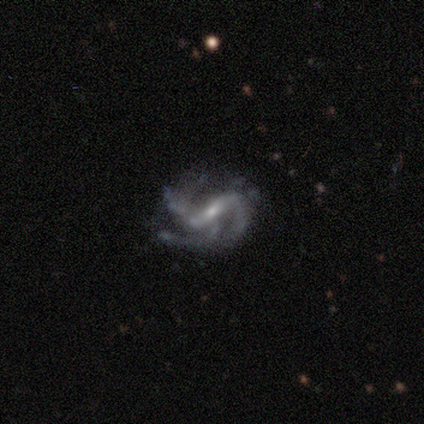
A featured or disk galaxy (100%) with a strong bar (80%), 2 (60%) medium (60%) spiral arms (100%) and a small central bulge (80%). Merging: none (100%).